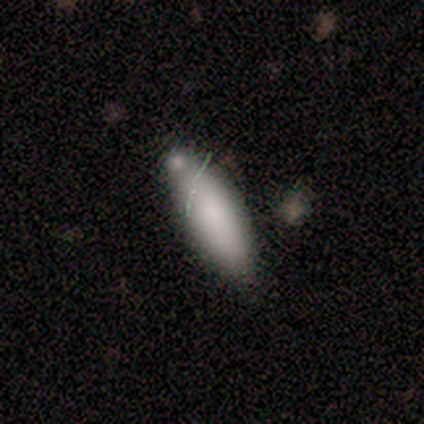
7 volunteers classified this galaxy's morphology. Smooth or featured? 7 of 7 (100%) said smooth. How rounded? 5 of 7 (71%) said cigar-shaped. Merging? 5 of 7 (71%) said none.